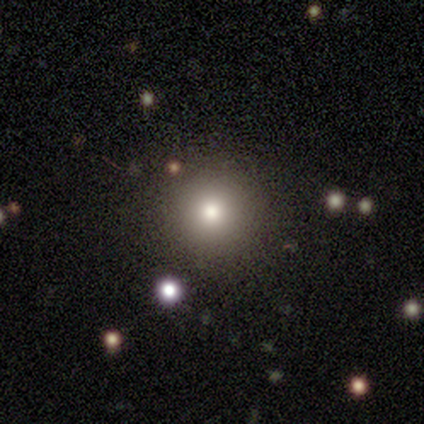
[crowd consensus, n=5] This appears to be a star or artifact, not a galaxy (60%).